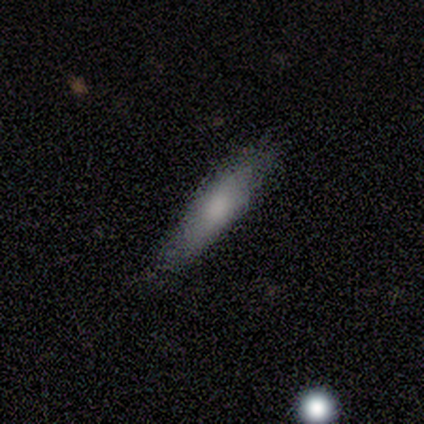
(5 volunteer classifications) Q: Smooth or featured?
A: smooth (80%); runner-up: featured or disk (20%)
Q: How rounded?
A: cigar-shaped (100%)
Q: Merging?
A: none (80%); runner-up: minor disturbance (20%)